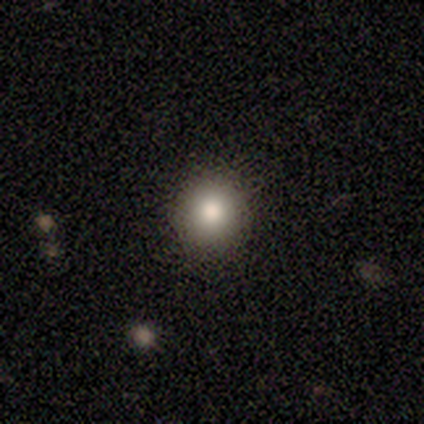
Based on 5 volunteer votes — Q: Smooth or featured?
A: smooth (60%); runner-up: featured or disk (20%)
Q: How rounded?
A: round (100%)
Q: Merging?
A: none (100%)